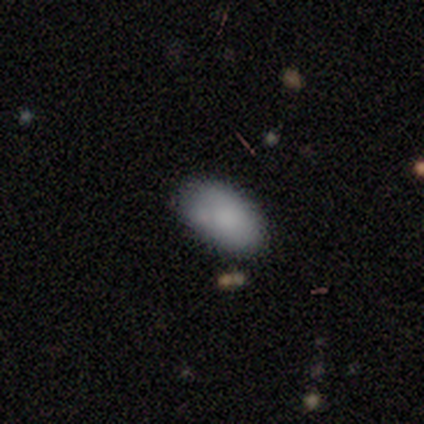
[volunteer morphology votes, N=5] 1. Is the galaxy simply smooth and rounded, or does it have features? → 100% smooth, 0% featured or disk, 0% star or artifact.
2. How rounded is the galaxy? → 100% in between, 0% round, 0% cigar-shaped.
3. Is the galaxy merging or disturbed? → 80% none, 20% minor disturbance, 0% major disturbance, 0% merger.